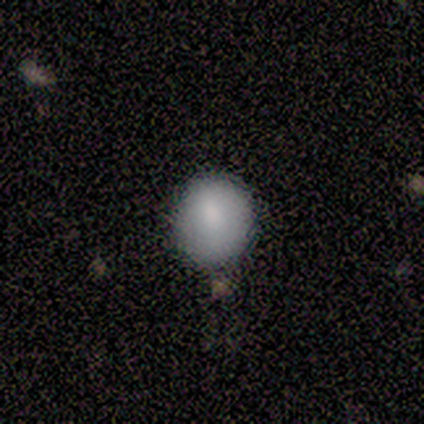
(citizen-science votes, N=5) This is clearly a smooth galaxy (80%). How rounded: possibly round (50%, tied with in between). Merging: clearly none (80%).